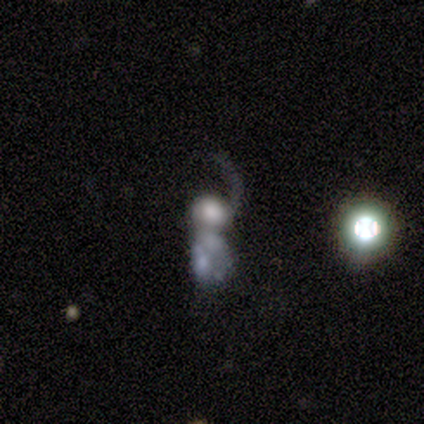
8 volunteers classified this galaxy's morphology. This is likely a featured or disk galaxy (62%). It is clearly not viewed edge-on (100%). Bar: likely no (60%). Spiral arm pattern: clearly yes (80%). Spiral arm count: likely 1 (75%). Spiral winding: likely loose (75%). Central bulge: marginally large (40%, tied with moderate). Merging: likely merger (62%).